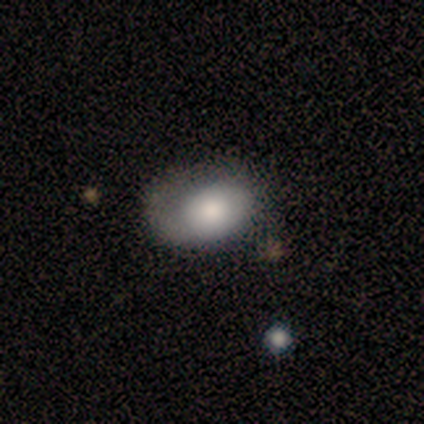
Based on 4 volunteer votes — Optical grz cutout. It shows a smooth galaxy with no disk features (50%, tied with featured or disk) that is in between round and cigar-shaped (100%). Merging: minor disturbance (75%).